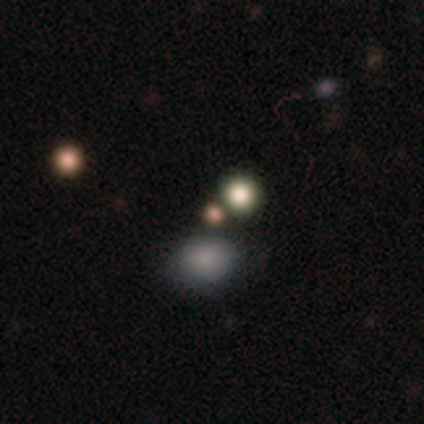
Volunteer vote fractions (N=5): Q: Smooth or featured?
A: star or artifact (80%); runner-up: smooth (20%)